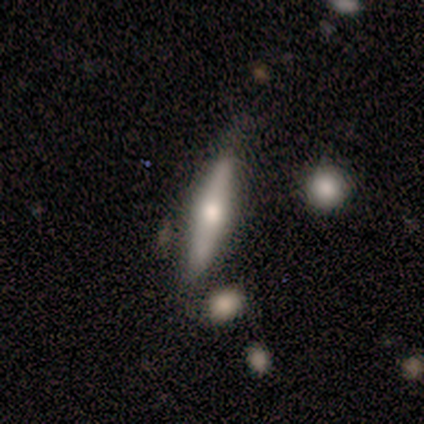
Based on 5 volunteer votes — Overall: featured or disk (60%; smooth 40%). Edge-on disk: yes (100%). Edge-on bulge: rounded (100%). Merging: none (60%; minor disturbance 20%).